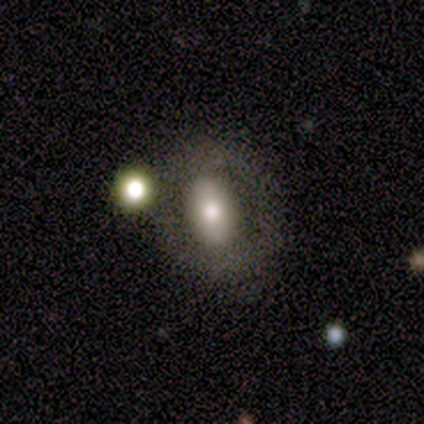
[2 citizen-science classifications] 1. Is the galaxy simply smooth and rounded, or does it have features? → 50% smooth (tied), 50% featured or disk (tied), 0% star or artifact.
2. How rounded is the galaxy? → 100% in between, 0% round, 0% cigar-shaped.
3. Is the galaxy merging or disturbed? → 50% major disturbance (tied), 50% merger (tied), 0% none, 0% minor disturbance.